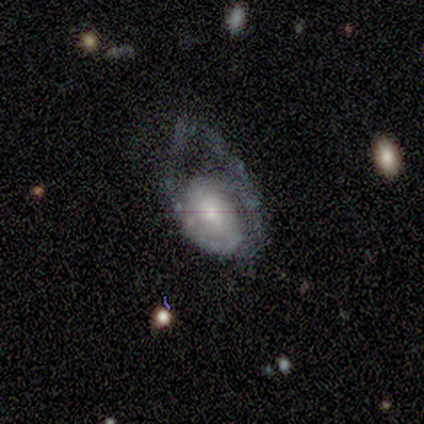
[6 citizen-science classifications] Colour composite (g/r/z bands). It shows a featured or disk galaxy (83%) with no bar (60%), 2 (75%) medium (50%) spiral arms (80%) and a moderate central bulge (60%). Merging: major disturbance (50%).